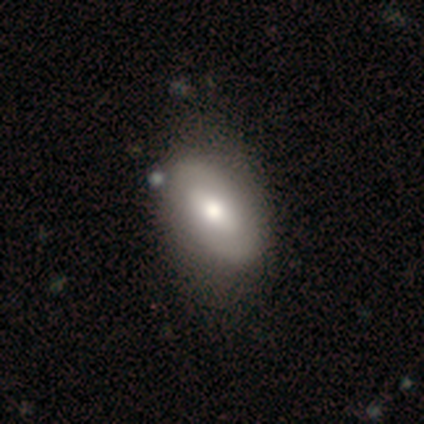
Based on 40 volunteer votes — A smooth galaxy with no disk features (57%) that is in between round and cigar-shaped (100%). Merging: none (55%).